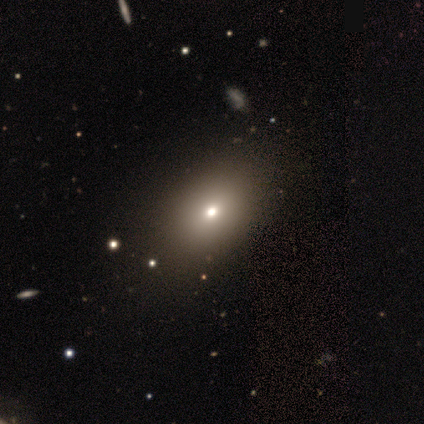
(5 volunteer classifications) Volunteers were most divided on "smooth or featured": smooth: 60%, featured or disk: 40%, star or artifact: 0%. More confident: how rounded — in between (100%); merging — minor disturbance (60%).